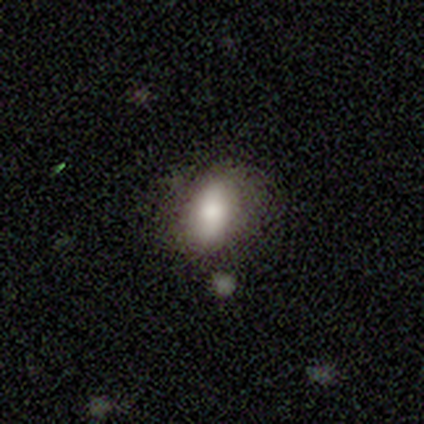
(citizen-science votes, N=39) smooth 74%, featured or disk 21%, star or artifact 5%. Down the decision tree: how rounded — in between (83%); merging — none (76%).